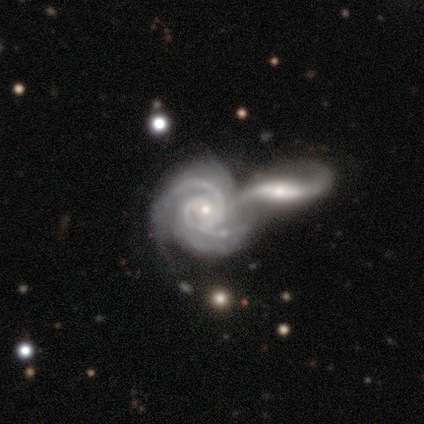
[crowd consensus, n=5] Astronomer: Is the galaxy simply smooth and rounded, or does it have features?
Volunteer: featured or disk — 100%.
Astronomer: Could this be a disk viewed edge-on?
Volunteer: no — 100%.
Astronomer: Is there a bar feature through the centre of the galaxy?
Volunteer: no — 60% (runner-up: weak, 40%).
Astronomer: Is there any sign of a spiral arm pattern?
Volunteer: yes — 100%.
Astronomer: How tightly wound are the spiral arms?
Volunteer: tight — 60% (runner-up: medium, 40%).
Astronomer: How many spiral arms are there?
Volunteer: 2 — 80%.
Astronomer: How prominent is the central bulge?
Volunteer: small — 80%.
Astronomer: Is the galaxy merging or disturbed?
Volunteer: merger — 60%.